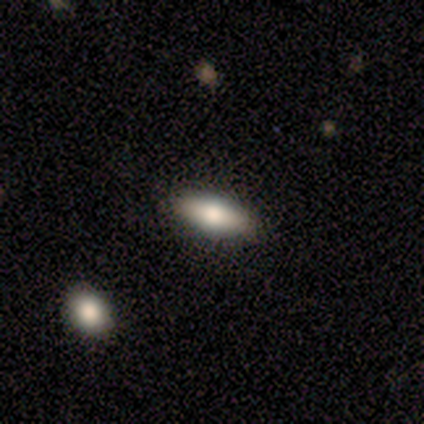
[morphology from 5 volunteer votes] Smooth or featured: smooth — 80% (featured or disk — 20%)
How rounded: in between — 50% (tied with cigar-shaped — 50%)
Merging: none — 100%